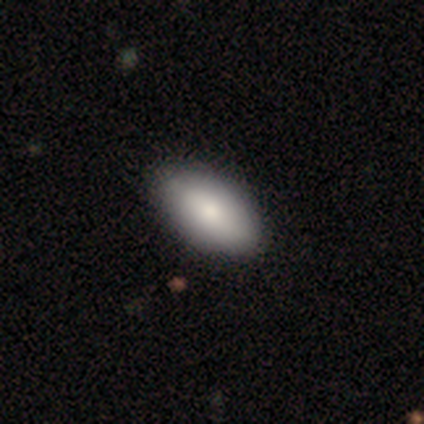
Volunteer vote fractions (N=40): A smooth galaxy with no disk features (90%) that is in between round and cigar-shaped (97%).

Vote fractions:
- Smooth or featured? smooth: 90% / featured or disk: 5% / star or artifact: 5%
- How rounded? in between: 97% / cigar-shaped: 3% / round: 0%
- Merging? none: 66% / minor disturbance: 8% / merger: 3% / major disturbance: 0%